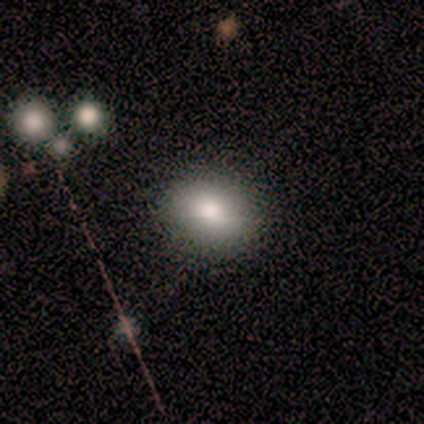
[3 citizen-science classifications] smooth_or_featured: smooth (p=0.67) [alt: star or artifact p=0.33]
how_rounded: round (p=0.50) [tied with: in between p=0.50]
merging: none (p=1.00)